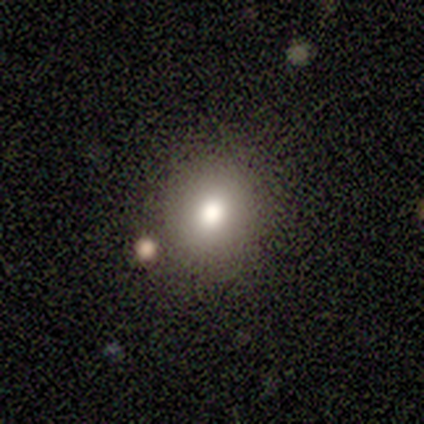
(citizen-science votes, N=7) Q: Smooth or featured?
A: star or artifact (57%); runner-up: smooth (43%)